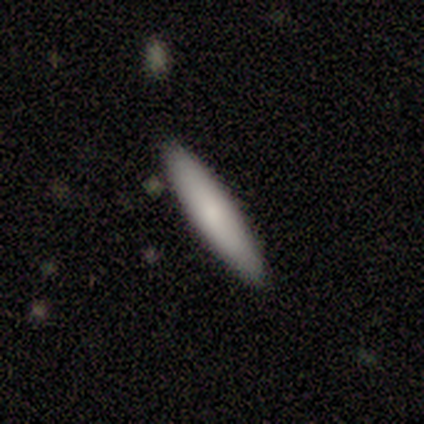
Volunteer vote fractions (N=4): Smooth or featured? smooth (75%)
How rounded? cigar-shaped (100%)
Merging? none (100%)